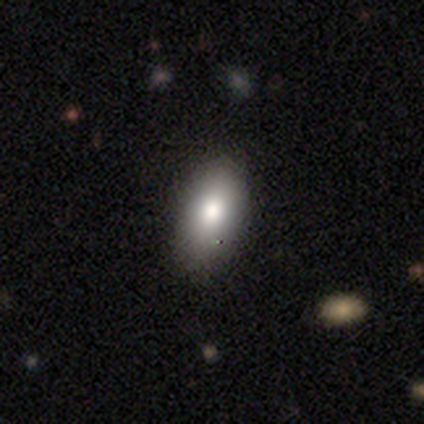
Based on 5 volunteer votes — Smooth or featured? 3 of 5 (60%) said smooth. How rounded? 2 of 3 (67%) said in between. Merging? 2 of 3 (67%) said none.